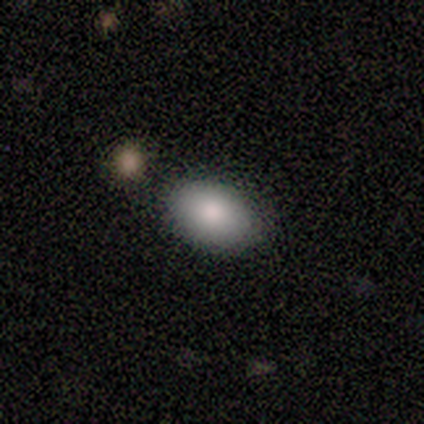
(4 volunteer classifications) Smooth or featured?
  - smooth: 100% *
  - featured or disk: 0%
  - star or artifact: 0%
How rounded?
  - in between: 100% *
  - round: 0%
  - cigar-shaped: 0%
Merging?
  - none: 100% *
  - minor disturbance: 0%
  - major disturbance: 0%
  - merger: 0%